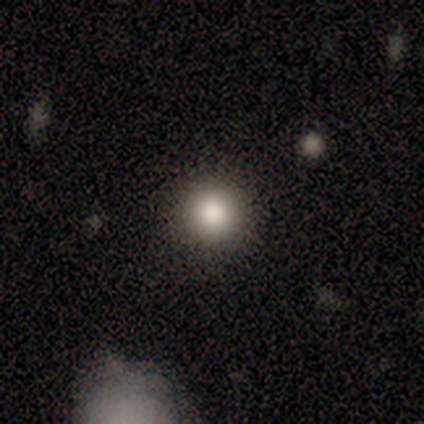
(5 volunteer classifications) Morphology: type=smooth (80%); roundness=round (100%); merging=none (100%).